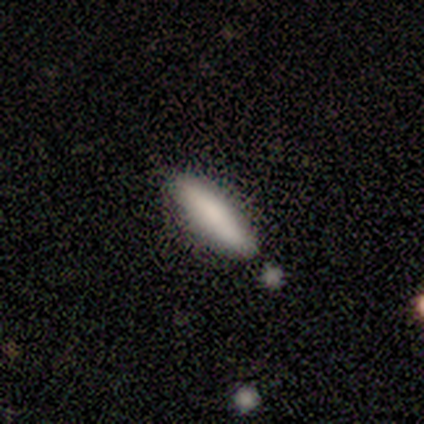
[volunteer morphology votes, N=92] Q: Smooth or featured?
A: smooth (82%); runner-up: star or artifact (10%)
Q: How rounded?
A: cigar-shaped (81%); runner-up: in between (19%)
Q: Merging?
A: none (87%); runner-up: minor disturbance (10%)